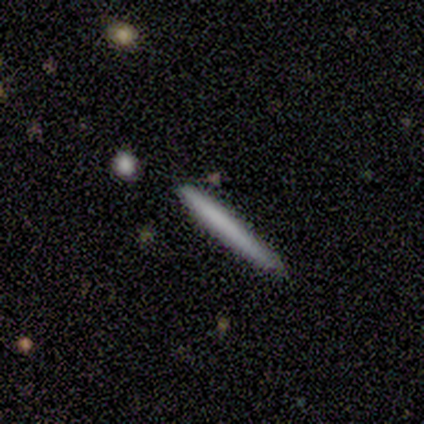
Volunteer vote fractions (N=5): This is clearly a smooth galaxy (80%). How rounded: clearly cigar-shaped (100%). Merging: clearly none (100%).